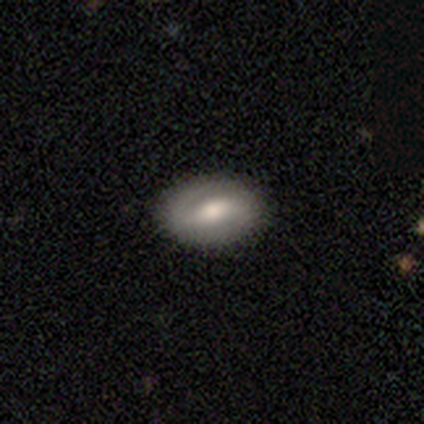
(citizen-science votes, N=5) featured or disk 60%, smooth 40%, star or artifact 0%. Down the decision tree: edge-on disk — no (67%); bar — strong (50%, tied with weak); spiral arms — yes (50%, tied with no); spiral arm count — 2 (100%); spiral winding — loose (100%); bulge size — moderate (50%, tied with small); merging — none (100%).